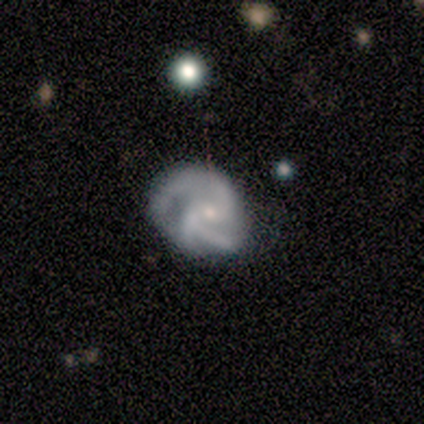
Smooth or featured? featured or disk (100%)
Edge-on disk? no (100%)
Bar? no (75%)
Spiral arms? yes (100%)
Spiral winding? medium (75%)
Spiral arm count? 2 (50%, tied with 3)
Bulge size? small (75%)
Merging? none (50%)